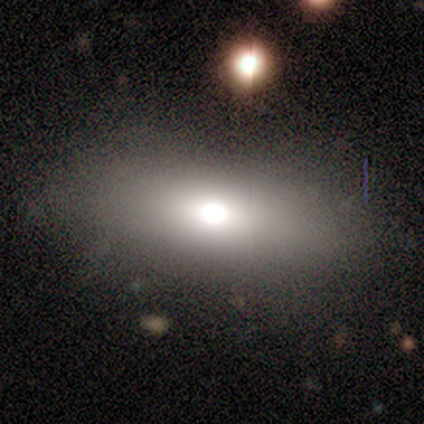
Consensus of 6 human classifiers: This is likely a smooth galaxy (67%). How rounded: likely in between (75%). Merging: clearly none (100%).